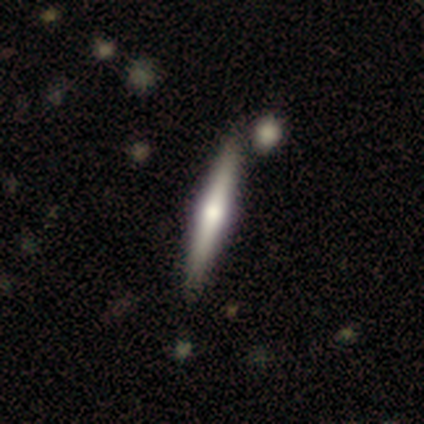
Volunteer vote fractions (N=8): This is likely a featured or disk galaxy (62%). It is clearly viewed edge-on (100%). Edge-on bulge: clearly rounded (100%). Merging: clearly none (88%).